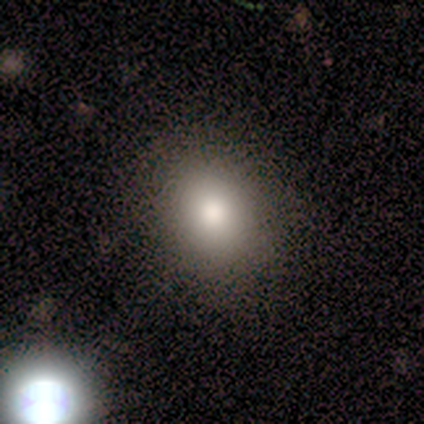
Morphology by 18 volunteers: Overall: smooth (83%). How rounded: in between (53%; round 47%). Merging: none (75%).